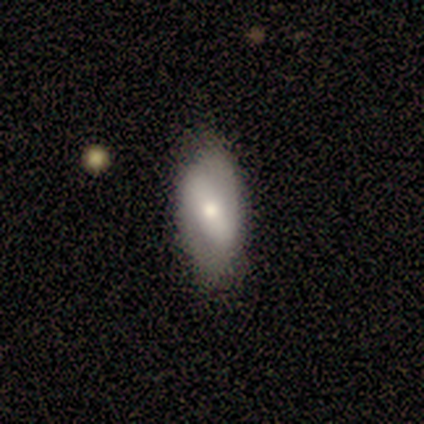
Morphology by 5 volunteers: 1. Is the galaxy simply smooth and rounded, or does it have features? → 60% featured or disk, 20% smooth, 20% star or artifact.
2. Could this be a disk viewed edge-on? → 100% no, 0% yes.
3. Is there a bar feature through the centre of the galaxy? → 67% strong, 33% weak, 0% no.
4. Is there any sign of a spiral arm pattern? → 67% yes, 33% no.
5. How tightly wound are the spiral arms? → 100% tight, 0% medium, 0% loose.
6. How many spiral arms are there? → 100% 2, 0% 1, 0% 3, 0% 4, 0% more than 4, 0% can't tell.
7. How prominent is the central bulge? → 33% large (tied), 33% moderate (tied), 33% small (tied), 0% dominant, 0% none.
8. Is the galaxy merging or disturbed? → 75% minor disturbance, 25% none, 0% major disturbance, 0% merger.